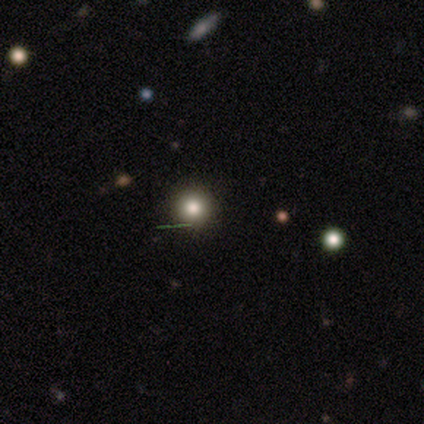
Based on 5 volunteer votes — This appears to be a smooth galaxy with no disk features (40%, tied with star or artifact) that is round (100%). Merging: none (67%).